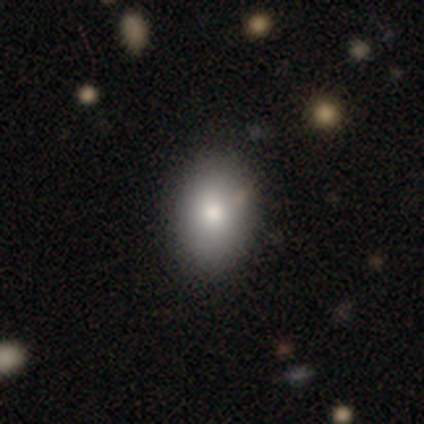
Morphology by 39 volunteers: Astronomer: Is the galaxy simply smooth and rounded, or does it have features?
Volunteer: smooth — 85%.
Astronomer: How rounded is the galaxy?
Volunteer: in between — 76%.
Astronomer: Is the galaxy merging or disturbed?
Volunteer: none — 53%.